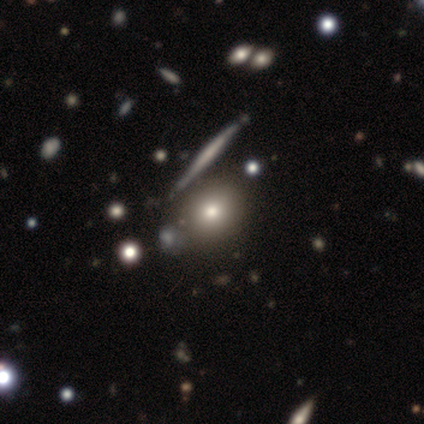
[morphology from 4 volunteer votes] A smooth galaxy with no disk features (50%) that is round (50%, tied with in between).

Vote fractions:
- Smooth or featured? smooth: 50% / featured or disk: 25% / star or artifact: 25%
- How rounded? round: 50% (tied) / in between: 50% (tied) / cigar-shaped: 0%
- Merging? none: 100% / minor disturbance: 0% / major disturbance: 0% / merger: 0%